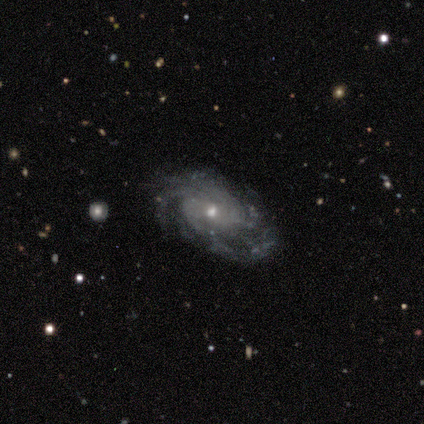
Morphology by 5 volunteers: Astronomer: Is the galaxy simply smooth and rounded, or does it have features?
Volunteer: featured or disk — 80%.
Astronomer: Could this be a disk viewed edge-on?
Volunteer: no — 100%.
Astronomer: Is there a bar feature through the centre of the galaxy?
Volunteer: strong — 50%, tied with no at 50%.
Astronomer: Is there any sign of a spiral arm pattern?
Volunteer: yes — 100%.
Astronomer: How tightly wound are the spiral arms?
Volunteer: tight — 75%.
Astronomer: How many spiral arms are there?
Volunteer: can't tell — 50%.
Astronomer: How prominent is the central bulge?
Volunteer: moderate — 50%, tied with small at 50%.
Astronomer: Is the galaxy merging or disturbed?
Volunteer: none — 50%, tied with minor disturbance at 50%.